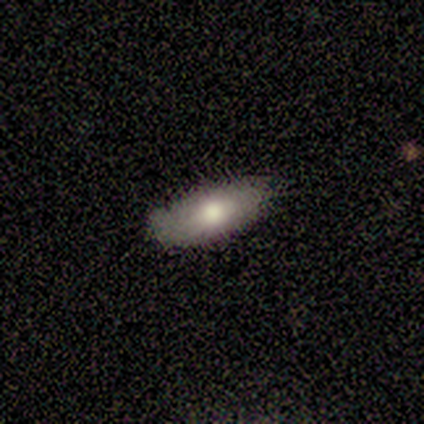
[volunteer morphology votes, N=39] Volunteers were most divided on "smooth or featured": smooth: 69%, featured or disk: 28%, star or artifact: 3%. More confident: how rounded — in between (85%); merging — none (76%).